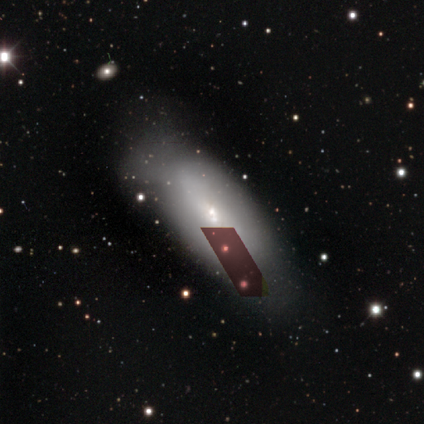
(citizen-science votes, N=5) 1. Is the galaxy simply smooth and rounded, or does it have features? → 60% smooth, 20% featured or disk, 20% star or artifact.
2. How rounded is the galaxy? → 67% in between, 33% cigar-shaped, 0% round.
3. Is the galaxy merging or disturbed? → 75% minor disturbance, 25% none, 0% major disturbance, 0% merger.